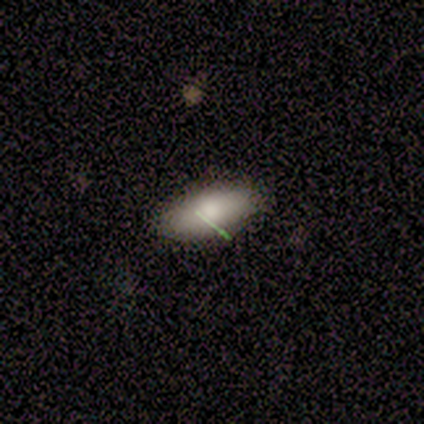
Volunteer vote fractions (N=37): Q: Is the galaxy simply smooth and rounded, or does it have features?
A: smooth — 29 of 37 (78%).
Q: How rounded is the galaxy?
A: in between — 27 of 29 (93%).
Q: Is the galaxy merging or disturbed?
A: none — 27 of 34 (79%).